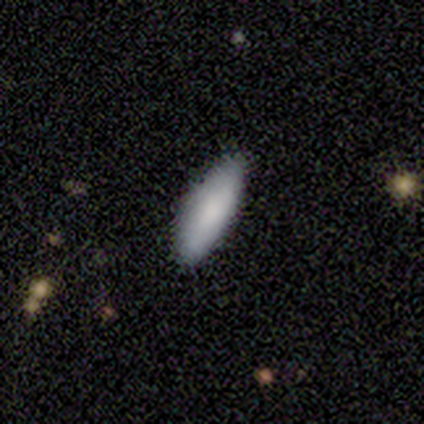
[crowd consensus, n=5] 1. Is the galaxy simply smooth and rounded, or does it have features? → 100% smooth, 0% featured or disk, 0% star or artifact.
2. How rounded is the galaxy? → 80% cigar-shaped, 20% in between, 0% round.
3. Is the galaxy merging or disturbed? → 80% none, 20% minor disturbance, 0% major disturbance, 0% merger.